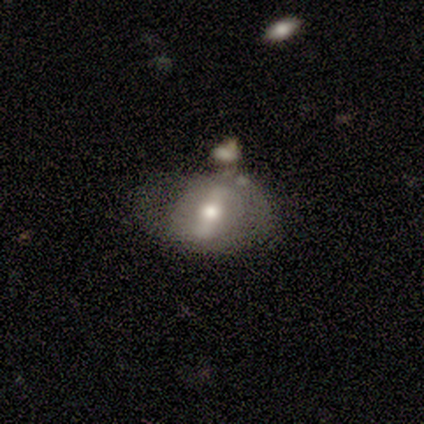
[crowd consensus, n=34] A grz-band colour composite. It shows a featured or disk galaxy (53%) with a strong bar (71%), no spiral arms (59%) and a moderate central bulge (71%). Merging: minor disturbance (34%).